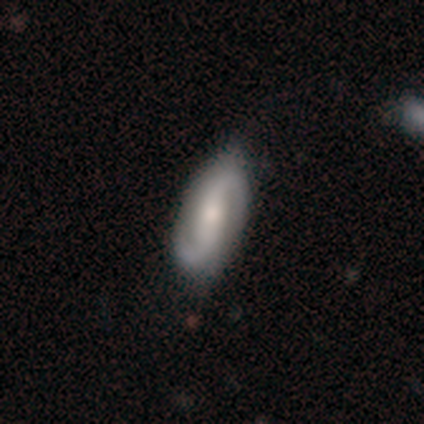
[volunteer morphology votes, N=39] featured or disk 92%, smooth 8%, star or artifact 0%. Down the decision tree: edge-on disk — no (97%); bar — strong (54%); spiral arms — yes (100%); spiral arm count — 2 (100%); spiral winding — medium (49%); bulge size — moderate (54%); merging — none (62%).